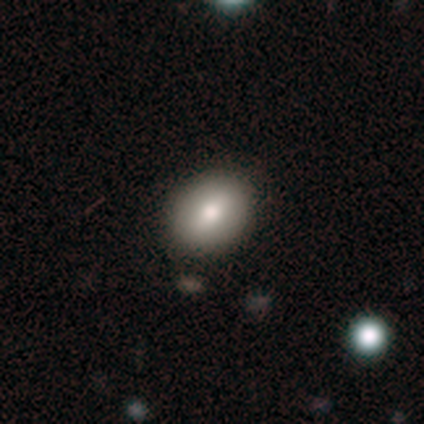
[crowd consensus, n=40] smooth_or_featured: smooth (p=0.88) [alt: featured or disk p=0.10]
how_rounded: in between (p=0.80) [alt: round p=0.20]
merging: none (p=0.69) [alt: major disturbance p=0.03]